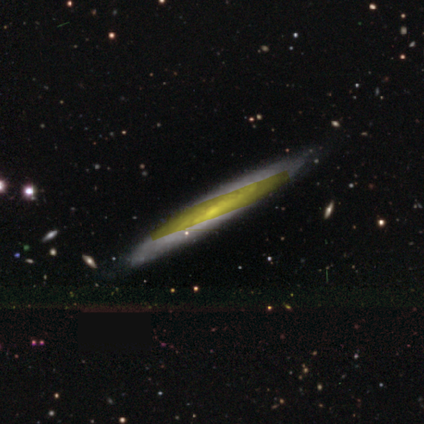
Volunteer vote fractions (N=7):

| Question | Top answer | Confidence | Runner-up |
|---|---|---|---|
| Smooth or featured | featured or disk | 86% | smooth (14%) |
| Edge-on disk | yes | 50% | tied: no (50%) |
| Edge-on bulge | none | 100% | — |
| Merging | none | 86% | minor disturbance (14%) |